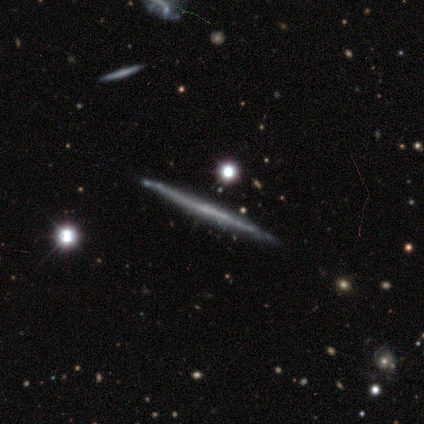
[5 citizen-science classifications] Volunteers were most divided on "smooth or featured": featured or disk: 60%, smooth: 40%, star or artifact: 0%. More confident: edge-on disk — yes (100%); merging — none (80%); edge-on bulge — none (67%).